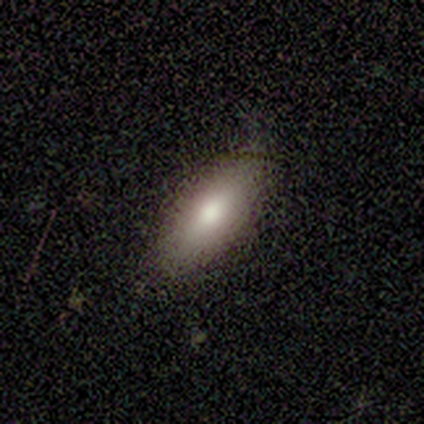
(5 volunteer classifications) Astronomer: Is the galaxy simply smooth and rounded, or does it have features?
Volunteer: smooth — 80%.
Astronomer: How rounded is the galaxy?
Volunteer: in between — 75%.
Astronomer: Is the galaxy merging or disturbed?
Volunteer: none — 100%.